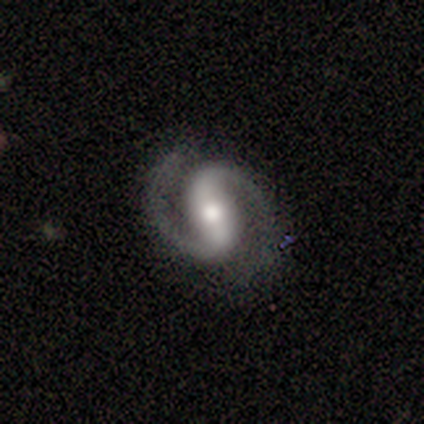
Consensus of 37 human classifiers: This is clearly a featured or disk galaxy (97%). It is clearly not viewed edge-on (97%). Bar: likely strong (60%). Spiral arm pattern: clearly yes (97%). Spiral arm count: clearly 2 (100%). Spiral winding: likely medium (68%). Central bulge: likely moderate (74%). Merging: clearly none (95%).